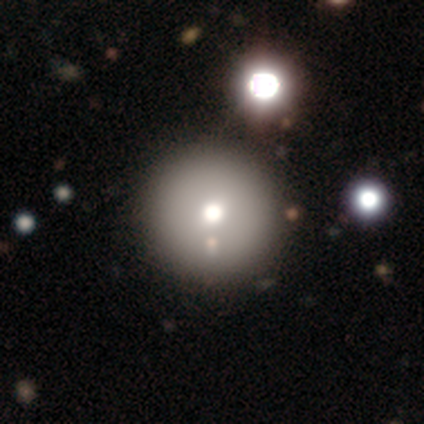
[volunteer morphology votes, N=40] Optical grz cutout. It shows a smooth galaxy with no disk features (75%) that is round (93%). Merging: none (53%).